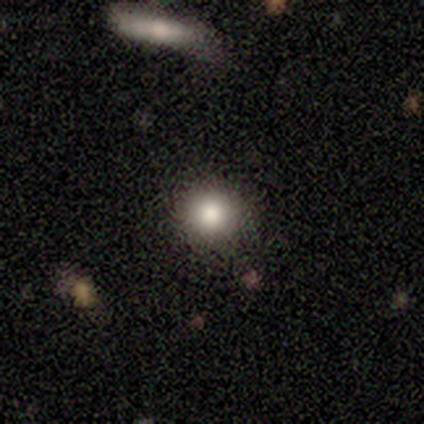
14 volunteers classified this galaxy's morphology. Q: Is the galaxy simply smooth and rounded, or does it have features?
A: smooth — 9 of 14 (64%).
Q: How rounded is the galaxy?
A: round — 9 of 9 (100%).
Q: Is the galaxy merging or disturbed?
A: none — 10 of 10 (100%).